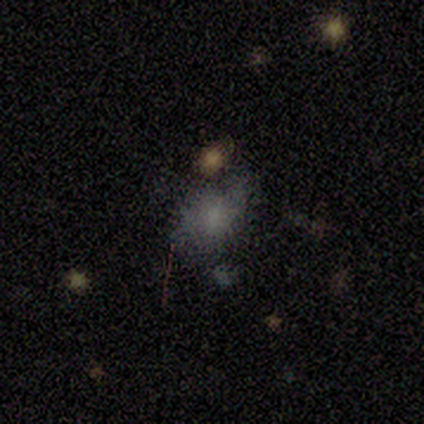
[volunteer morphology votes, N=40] Smooth or featured? smooth (72%)
How rounded? in between (79%)
Merging? none (44%)